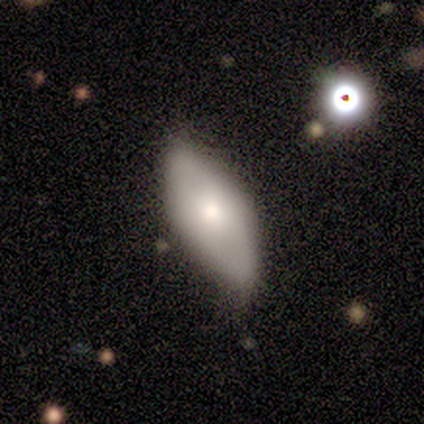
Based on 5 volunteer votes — Volunteers were most divided on "smooth or featured": smooth: 60%, featured or disk: 40%, star or artifact: 0%. More confident: how rounded — in between (100%); merging — none (80%).